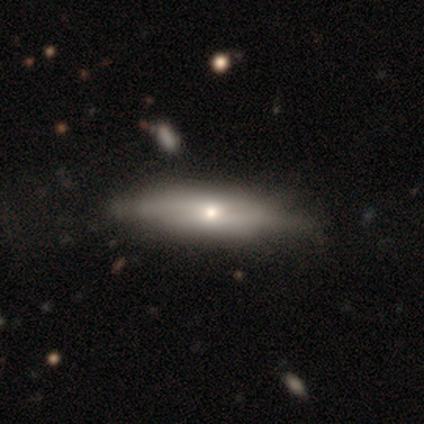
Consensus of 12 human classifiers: Q: Smooth or featured?
A: featured or disk (50%); runner-up: smooth (42%)
Q: Edge-on disk?
A: no (83%); runner-up: yes (17%)
Q: Bar?
A: no (100%)
Q: Spiral arms?
A: no (80%); runner-up: yes (20%)
Q: Bulge size?
A: moderate (60%); runner-up: small (40%)
Q: Merging?
A: none (64%); runner-up: minor disturbance (36%)